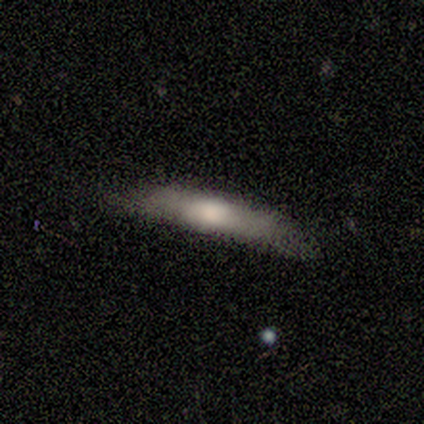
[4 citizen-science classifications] Smooth or featured?
  - smooth: 100% *
  - featured or disk: 0%
  - star or artifact: 0%
How rounded?
  - cigar-shaped: 100% *
  - round: 0%
  - in between: 0%
Merging?
  - none: 75% *
  - minor disturbance: 25%
  - major disturbance: 0%
  - merger: 0%